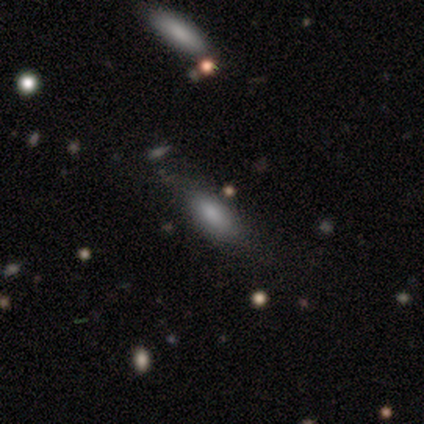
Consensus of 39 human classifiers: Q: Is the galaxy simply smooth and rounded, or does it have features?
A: smooth — 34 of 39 (87%).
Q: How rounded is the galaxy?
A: in between — 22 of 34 (65%).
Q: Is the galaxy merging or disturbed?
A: none — 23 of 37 (62%).